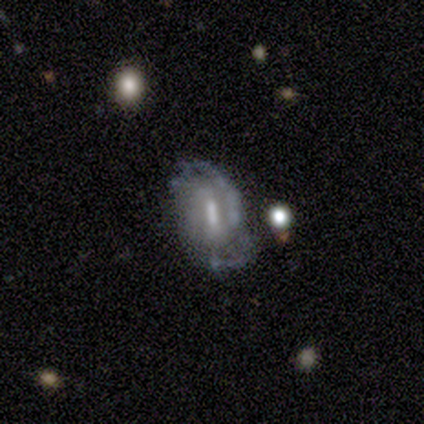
A featured or disk galaxy (80%) with a strong bar (75%), 2 (75%) tight (50%) spiral arms (100%) and a small central bulge (50%).

Vote fractions:
- Smooth or featured? featured or disk: 80% / star or artifact: 20% / smooth: 0%
- Edge-on disk? no: 100% / yes: 0%
- Bar? strong: 75% / weak: 25% / no: 0%
- Spiral arms? yes: 100% / no: 0%
- Spiral winding? tight: 50% / medium: 25% / loose: 25%
- Spiral arm count? 2: 75% / 3: 25% / 1: 0% / 4: 0% / more than 4: 0% / can't tell: 0%
- Bulge size? small: 50% / large: 25% / moderate: 25% / dominant: 0% / none: 0%
- Merging? none: 50% / minor disturbance: 25% / merger: 25% / major disturbance: 0%